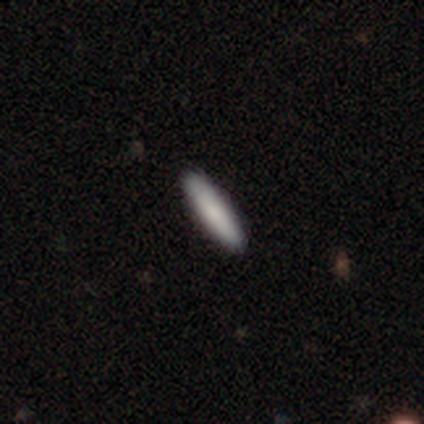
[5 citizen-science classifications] smooth 100%, featured or disk 0%, star or artifact 0%. Down the decision tree: how rounded — cigar-shaped (100%); merging — none (100%).